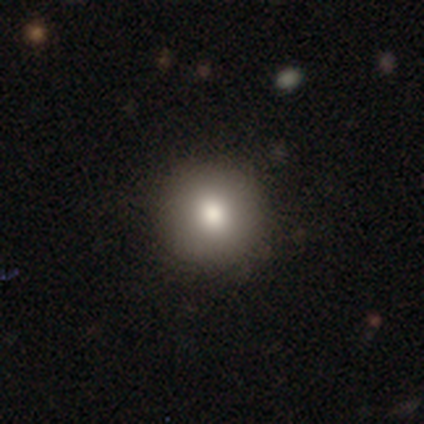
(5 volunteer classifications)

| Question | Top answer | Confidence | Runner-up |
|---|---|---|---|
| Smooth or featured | smooth | 80% | featured or disk (20%) |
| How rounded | round | 100% | — |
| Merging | none | 100% | — |